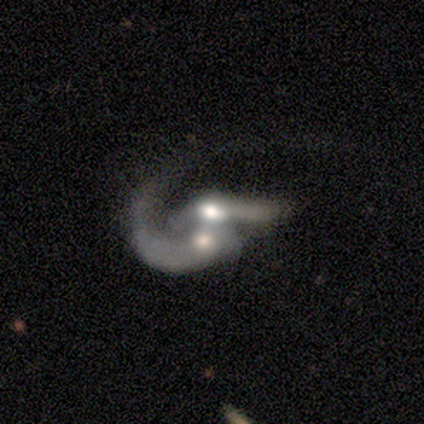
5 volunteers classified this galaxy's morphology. Q: Smooth or featured?
A: smooth (60%); runner-up: featured or disk (40%)
Q: How rounded?
A: in between (100%)
Q: Merging?
A: merger (100%)